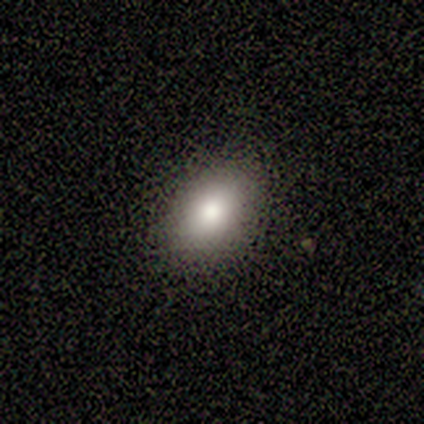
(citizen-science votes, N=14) A smooth galaxy with no disk features (79%) that is in between round and cigar-shaped (73%). Merging: none (75%).